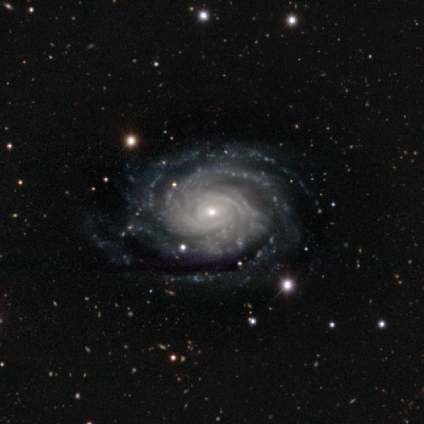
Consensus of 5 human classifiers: smooth-or-featured: featured or disk: 100% | smooth: 0% | star or artifact: 0%
  disk-edge-on: no: 100% | yes: 0%
    bar: no: 80% | weak: 20% | strong: 0%
    has-spiral-arms: yes: 100% | no: 0%
      spiral-winding: tight: 60% | medium: 40% | loose: 0%
      spiral-arm-count: 2: 60% | 3: 20% | 4: 20% | 1: 0% | more than 4: 0% | can't tell: 0%
    bulge-size: small: 100% | dominant: 0% | large: 0% | moderate: 0% | none: 0%
  merging: none: 100% | minor disturbance: 0% | major disturbance: 0% | merger: 0%